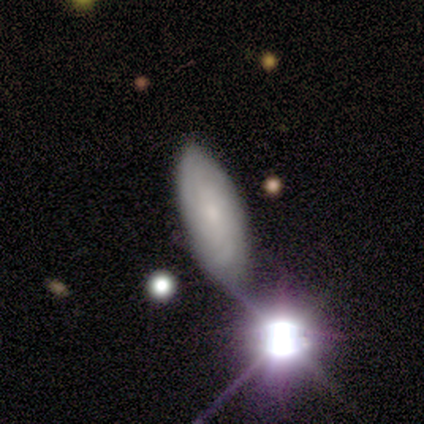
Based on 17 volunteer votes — Smooth or featured? 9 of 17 (53%) said smooth. How rounded? 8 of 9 (89%) said in between. Merging? 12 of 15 (80%) said none.